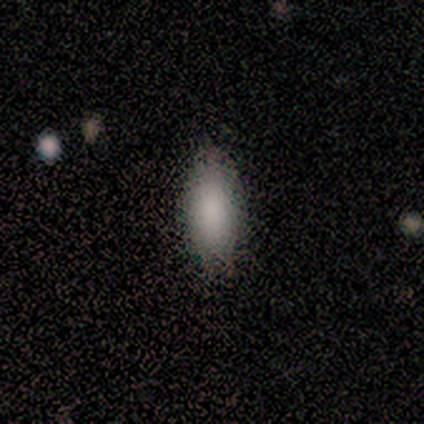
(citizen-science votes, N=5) smooth_or_featured: smooth (p=0.80) [alt: featured or disk p=0.20]
how_rounded: in between (p=0.75) [alt: cigar-shaped p=0.25]
merging: none (p=0.80) [alt: major disturbance p=0.20]